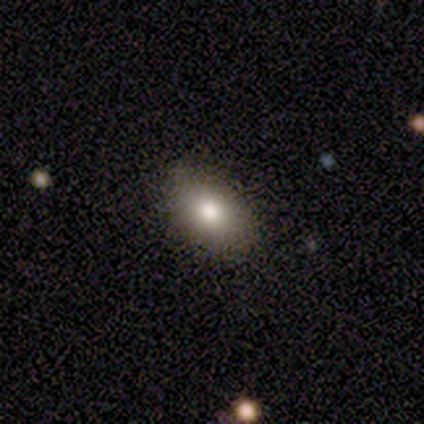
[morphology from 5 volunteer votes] Q: Smooth or featured?
A: smooth (100%)
Q: How rounded?
A: in between (100%)
Q: Merging?
A: none (100%)